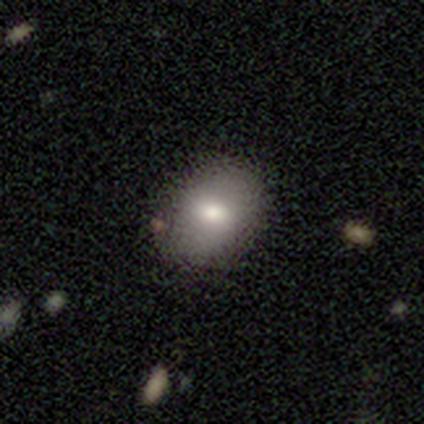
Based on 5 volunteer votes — Smooth or featured? 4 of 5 (80%) said smooth. How rounded? 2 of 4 (50%, tied with in between) said round. Merging? 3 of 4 (75%) said none.